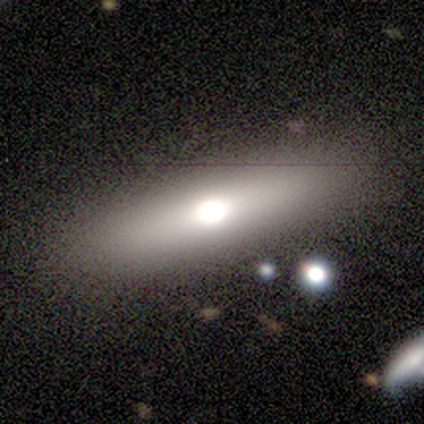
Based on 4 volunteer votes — A smooth galaxy with no disk features (50%) that is in between round and cigar-shaped (50%, tied with cigar-shaped).

Vote fractions:
- Smooth or featured? smooth: 50% / featured or disk: 25% / star or artifact: 25%
- How rounded? in between: 50% (tied) / cigar-shaped: 50% (tied) / round: 0%
- Merging? none: 100% / minor disturbance: 0% / major disturbance: 0% / merger: 0%